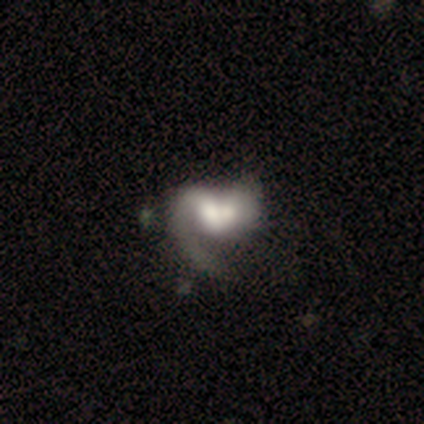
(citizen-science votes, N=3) Volunteers were most divided on "bar" (2-way tie): weak: 50%, no: 50%, strong: 0%; "spiral winding" (2-way tie): medium: 50%, loose: 50%, tight: 0%; "spiral arm count" (2-way tie): 1: 50%, can't tell: 50%, 2: 0%, 3: 0%, 4: 0%, more than 4: 0%. More confident: edge-on disk — no (100%); spiral arms — yes (100%); bulge size — moderate (100%); merging — merger (100%); smooth or featured — featured or disk (67%).